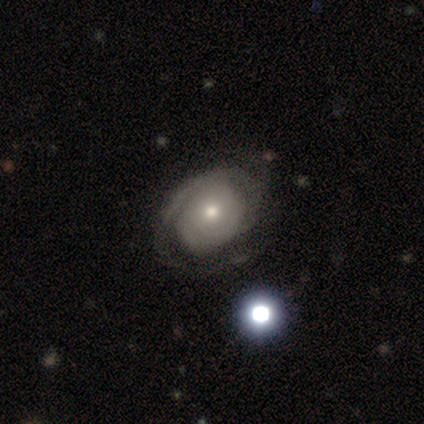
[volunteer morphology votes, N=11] Smooth or featured? featured or disk (64%)
Edge-on disk? no (100%)
Bar? no (86%)
Spiral arms? yes (100%)
Spiral winding? tight (86%)
Spiral arm count? can't tell (57%)
Bulge size? moderate (57%)
Merging? none (45%)